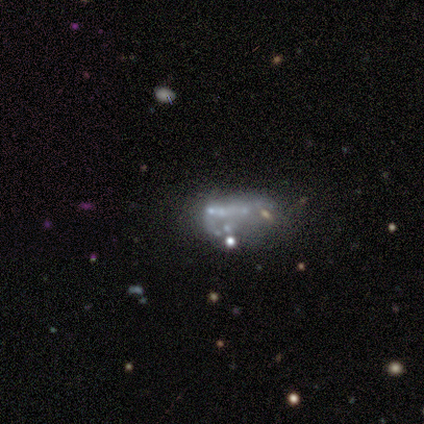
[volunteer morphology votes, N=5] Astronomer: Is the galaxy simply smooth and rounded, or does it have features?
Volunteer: featured or disk — 80%.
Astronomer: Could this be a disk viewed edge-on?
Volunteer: no — 100%.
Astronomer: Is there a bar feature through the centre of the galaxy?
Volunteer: no — 100%.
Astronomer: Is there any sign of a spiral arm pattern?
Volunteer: no — 100%.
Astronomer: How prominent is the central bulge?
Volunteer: none — 100%.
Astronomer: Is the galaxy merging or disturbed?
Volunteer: none — 40% (runner-up: minor disturbance, 20%).